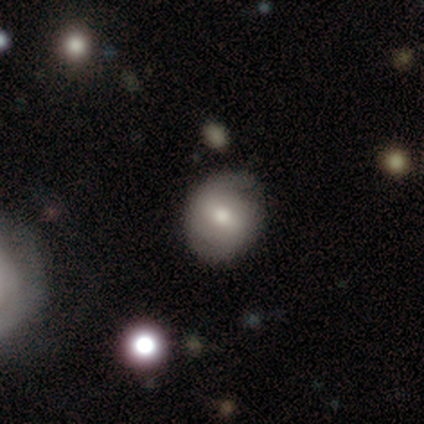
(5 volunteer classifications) Smooth or featured? smooth (80%)
How rounded? round (50%, tied with in between)
Merging? none (100%)